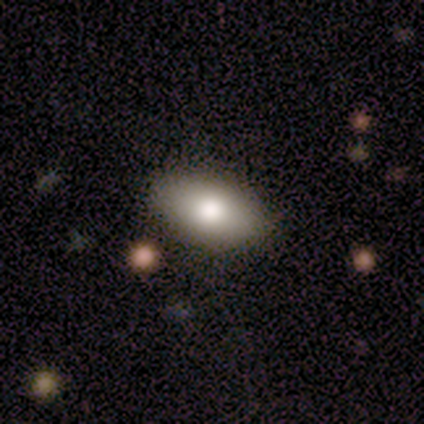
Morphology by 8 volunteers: smooth_or_featured: smooth (p=1.00)
how_rounded: in between (p=1.00)
merging: none (p=0.88) [alt: minor disturbance p=0.12]